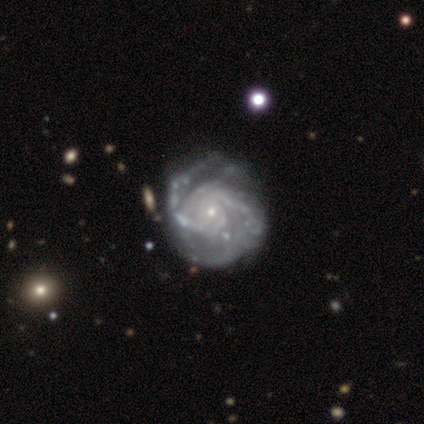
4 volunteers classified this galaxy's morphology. This is clearly a featured or disk galaxy (100%). It is clearly not viewed edge-on (100%). Bar: clearly no (100%). Spiral arm pattern: clearly yes (100%). Spiral arm count: possibly 2 (50%). Spiral winding: possibly tight (50%, tied with medium). Central bulge: clearly small (100%). Merging: possibly minor disturbance (50%).